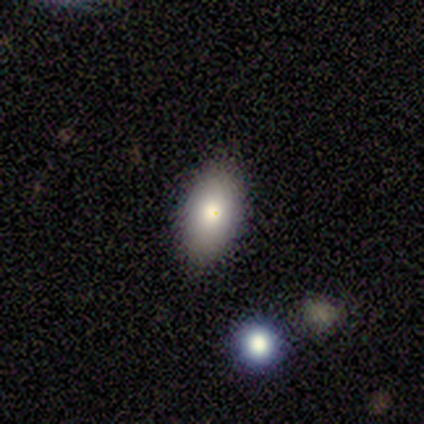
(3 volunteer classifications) This appears to be a smooth galaxy with no disk features (100%) that is in between round and cigar-shaped (100%). Merging: none (100%).